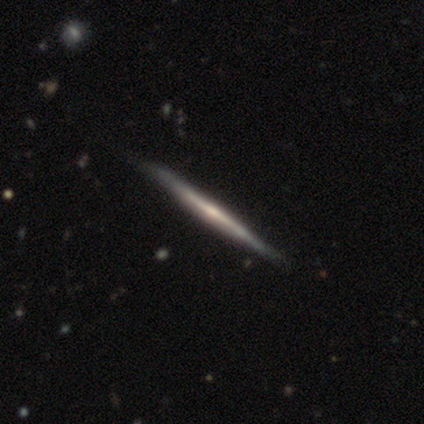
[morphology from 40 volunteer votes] Smooth or featured?
  - featured or disk: 82% *
  - smooth: 15%
  - star or artifact: 2%
Edge-on disk?
  - yes: 100% *
  - no: 0%
Edge-on bulge?
  - rounded: 58% *
  - none: 33%
  - boxy: 9%
Merging?
  - none: 62% *
  - minor disturbance: 5%
  - major disturbance: 0%
  - merger: 0%